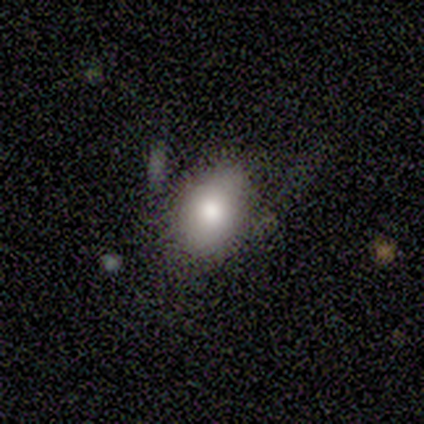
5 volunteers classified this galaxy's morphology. smooth-or-featured: smooth: 80% | featured or disk: 20% | star or artifact: 0%
  how-rounded: round: 50% (tied) | in between: 50% (tied) | cigar-shaped: 0%
  merging: none: 60% | minor disturbance: 20% | major disturbance: 20% | merger: 0%